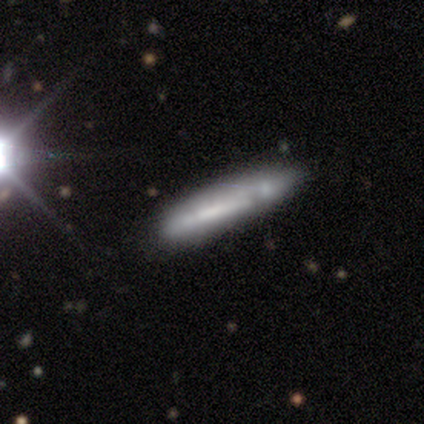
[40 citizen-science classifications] Volunteers were most divided on "smooth or featured": featured or disk: 50%, smooth: 45%, star or artifact: 5%. More confident: edge-on disk — yes (90%); merging — none (66%); edge-on bulge — none (61%).